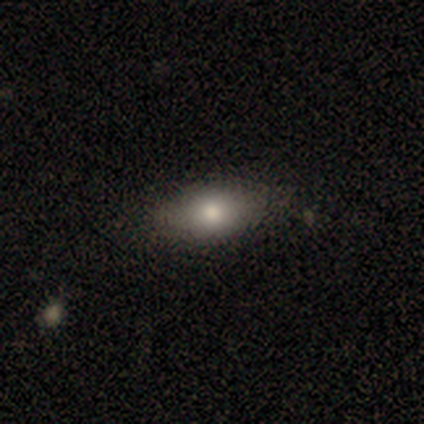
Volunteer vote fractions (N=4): This appears to be a smooth galaxy with no disk features (75%) that is in between round and cigar-shaped (100%). Merging: none (100%).